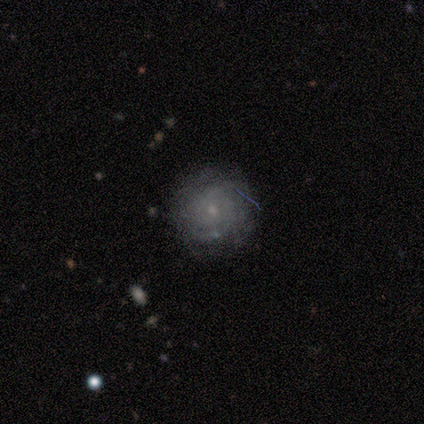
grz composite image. It shows a smooth galaxy with no disk features (40%, tied with star or artifact) that is round (100%). Merging: minor disturbance (67%).